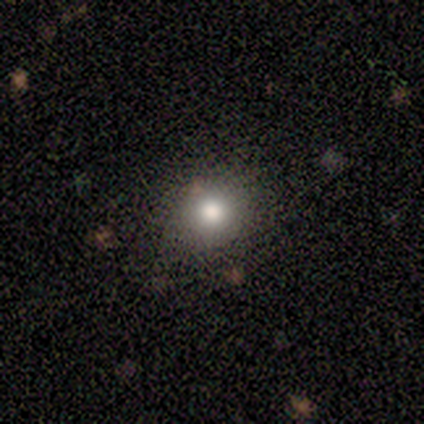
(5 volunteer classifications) Morphology: type=smooth (100%); roundness=round (80%); merging=none (80%).